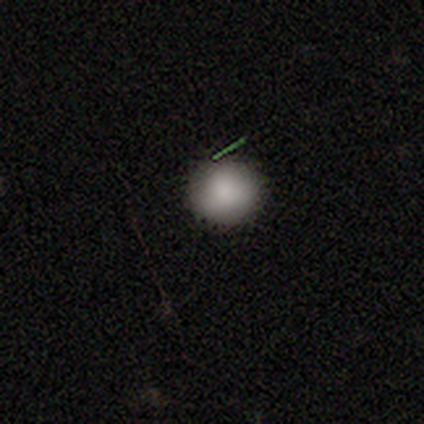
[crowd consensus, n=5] Smooth or featured?
  - smooth: 100% *
  - featured or disk: 0%
  - star or artifact: 0%
How rounded?
  - round: 100% *
  - in between: 0%
  - cigar-shaped: 0%
Merging?
  - none: 80% *
  - merger: 20%
  - minor disturbance: 0%
  - major disturbance: 0%